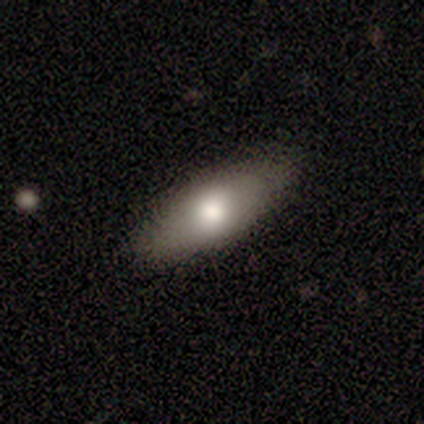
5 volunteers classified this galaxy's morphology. Smooth or featured? 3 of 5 (60%) said smooth. How rounded? 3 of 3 (100%) said in between. Merging? 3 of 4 (75%) said none.